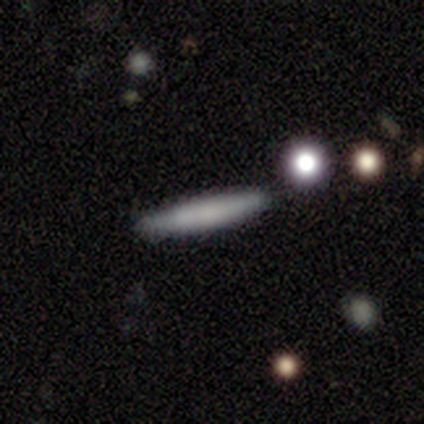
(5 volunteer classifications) smooth 60%, featured or disk 20%, star or artifact 20%. Down the decision tree: how rounded — cigar-shaped (100%); merging — none (75%).